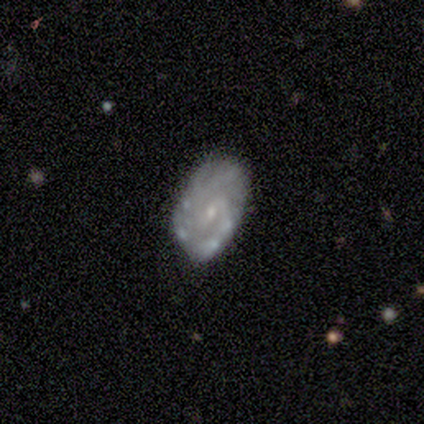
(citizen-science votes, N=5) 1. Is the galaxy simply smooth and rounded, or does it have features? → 80% featured or disk, 20% smooth, 0% star or artifact.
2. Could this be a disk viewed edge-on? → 100% no, 0% yes.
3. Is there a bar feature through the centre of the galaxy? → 75% weak, 25% no, 0% strong.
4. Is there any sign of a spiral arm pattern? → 100% yes, 0% no.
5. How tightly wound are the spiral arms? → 75% tight, 25% medium, 0% loose.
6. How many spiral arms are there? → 50% can't tell, 25% 2, 25% 3, 0% 1, 0% 4, 0% more than 4.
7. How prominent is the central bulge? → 100% small, 0% dominant, 0% large, 0% moderate, 0% none.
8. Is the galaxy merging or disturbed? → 60% none, 40% minor disturbance, 0% major disturbance, 0% merger.